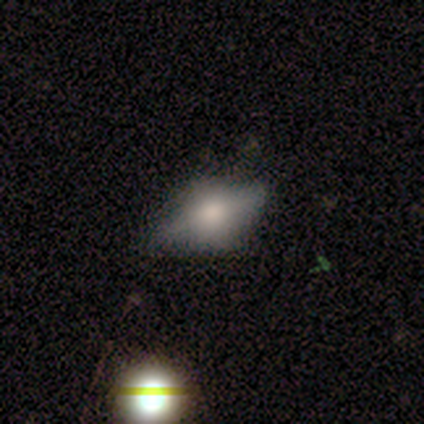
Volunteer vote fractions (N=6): Q: Smooth or featured?
A: featured or disk (67%); runner-up: smooth (17%)
Q: Edge-on disk?
A: no (75%); runner-up: yes (25%)
Q: Bar?
A: no (100%)
Q: Spiral arms?
A: no (100%)
Q: Bulge size?
A: moderate (67%); runner-up: none (33%)
Q: Merging?
A: minor disturbance (60%); runner-up: none (40%)